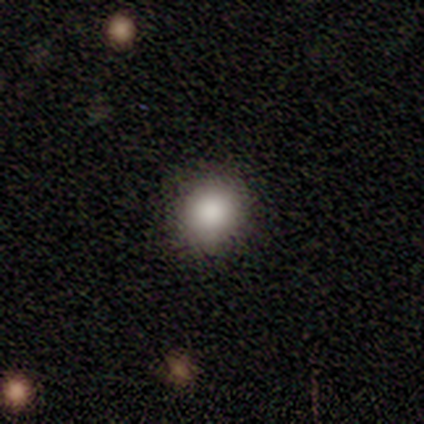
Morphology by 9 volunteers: Smooth or featured? 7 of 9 (78%) said smooth. How rounded? 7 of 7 (100%) said round. Merging? 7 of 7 (100%) said none.